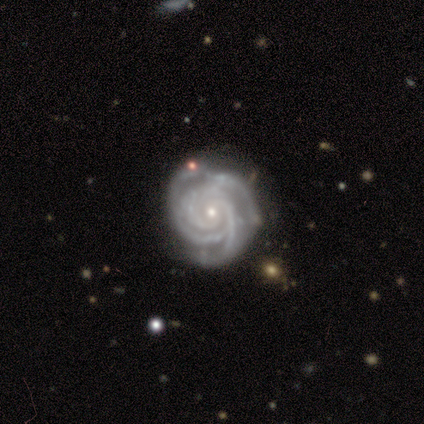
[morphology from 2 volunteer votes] smooth_or_featured: featured or disk (p=1.00)
disk_edge_on: no (p=1.00)
bar: no (p=1.00)
has_spiral_arms: yes (p=1.00)
spiral_winding: tight (p=0.50) [tied with: medium p=0.50]
spiral_arm_count: 3 (p=1.00)
bulge_size: small (p=1.00)
merging: none (p=1.00)